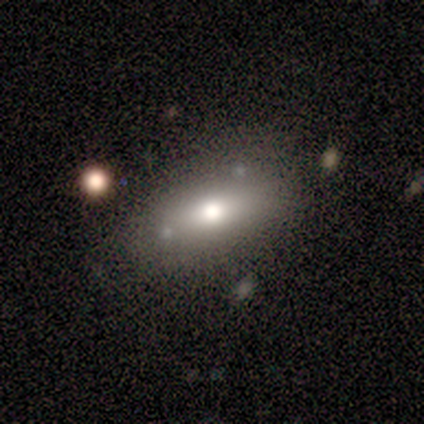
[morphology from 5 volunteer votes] smooth-or-featured: smooth: 100% | featured or disk: 0% | star or artifact: 0%
  how-rounded: in between: 80% | cigar-shaped: 20% | round: 0%
  merging: none: 60% | minor disturbance: 40% | major disturbance: 0% | merger: 0%